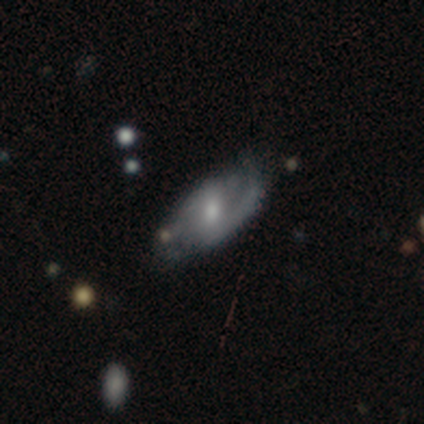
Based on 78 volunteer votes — Smooth or featured: featured or disk — 82% (smooth — 15%)
Edge-on disk: no — 98% (yes — 2%)
Bar: weak — 49% (no — 30%)
Spiral arms: yes — 94% (no — 6%)
Spiral winding: medium — 46% (loose — 31%)
Spiral arm count: 2 — 76% (1 — 12%)
Bulge size: moderate — 63% (small — 32%)
Merging: none — 29% (minor disturbance — 16%)